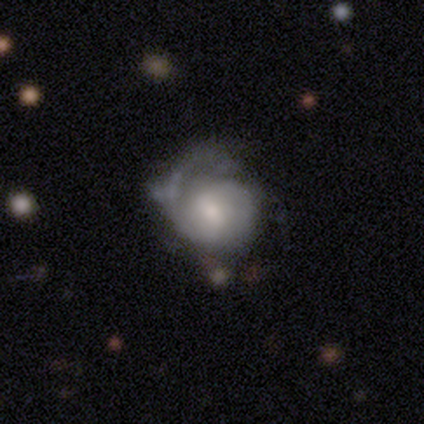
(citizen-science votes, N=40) This appears to be a featured or disk galaxy (72%) with a weak bar (48%), 2 (38%) tight (69%) spiral arms (90%) and a moderate central bulge (69%). Merging: major disturbance (41%).